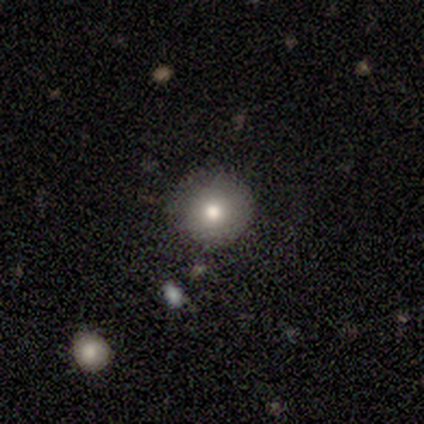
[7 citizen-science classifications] This is clearly a smooth galaxy (86%). How rounded: clearly round (100%). Merging: clearly none (83%).